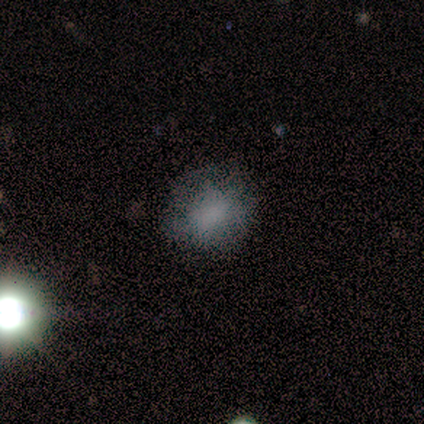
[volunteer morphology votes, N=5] Smooth or featured: smooth — 80% (star or artifact — 20%)
How rounded: round — 75% (in between — 25%)
Merging: none — 50% (tied with minor disturbance — 50%)